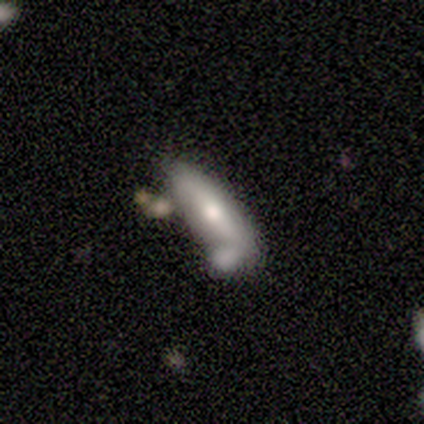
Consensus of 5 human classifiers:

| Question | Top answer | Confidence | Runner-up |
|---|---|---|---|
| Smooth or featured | smooth | 60% | featured or disk (40%) |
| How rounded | cigar-shaped | 100% | — |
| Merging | none | 40% | tied: major disturbance (40%) |